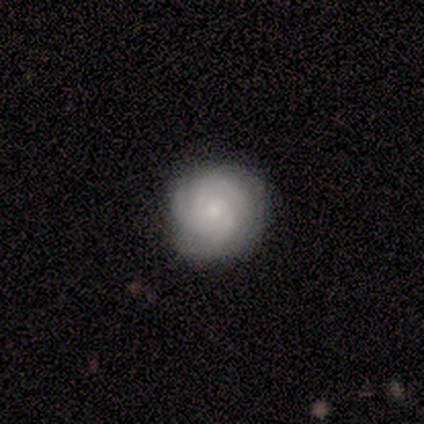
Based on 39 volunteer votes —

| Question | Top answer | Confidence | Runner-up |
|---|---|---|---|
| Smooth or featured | featured or disk | 67% | smooth (28%) |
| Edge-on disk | no | 100% | — |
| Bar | no | 88% | weak (12%) |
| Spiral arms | yes | 96% | no (4%) |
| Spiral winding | tight | 52% | medium (44%) |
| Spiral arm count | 3 | 72% | can't tell (24%) |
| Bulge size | moderate | 50% | small (46%) |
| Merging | none | 92% | minor disturbance (5%) |